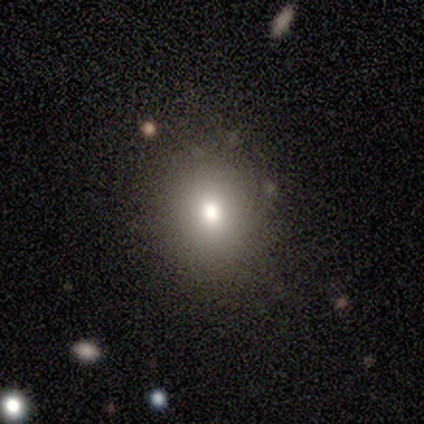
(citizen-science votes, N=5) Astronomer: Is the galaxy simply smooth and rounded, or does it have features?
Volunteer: smooth — 60%.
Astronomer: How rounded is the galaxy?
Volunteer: round — 100%.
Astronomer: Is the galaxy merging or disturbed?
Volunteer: none — 100%.